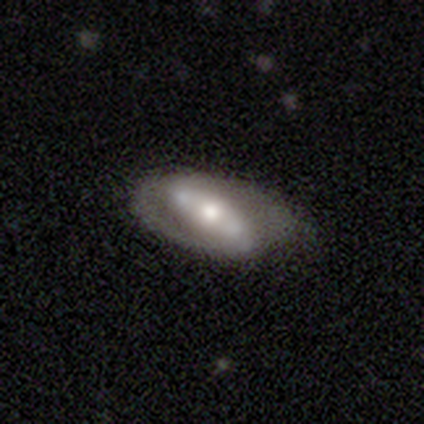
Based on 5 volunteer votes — smooth_or_featured: featured or disk (p=1.00)
disk_edge_on: no (p=0.80) [alt: yes p=0.20]
bar: strong (p=0.50) [alt: weak p=0.25]
has_spiral_arms: no (p=0.75) [alt: yes p=0.25]
bulge_size: moderate (p=0.75) [alt: small p=0.25]
merging: none (p=0.60) [alt: minor disturbance p=0.20]